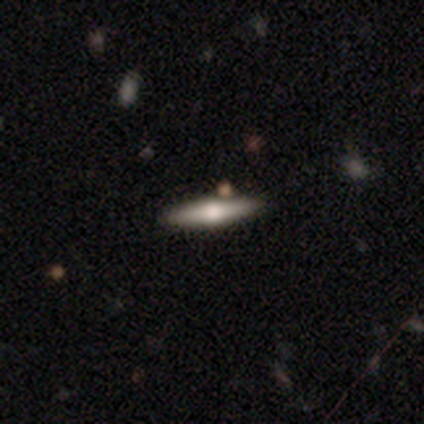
Q: Smooth or featured?
A: featured or disk (100%)
Q: Edge-on disk?
A: yes (100%)
Q: Edge-on bulge?
A: rounded (80%); runner-up: boxy (20%)
Q: Merging?
A: none (80%); runner-up: major disturbance (20%)